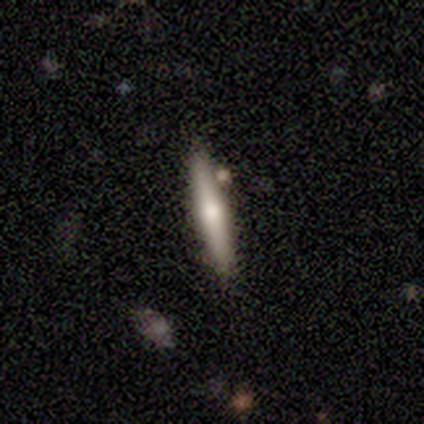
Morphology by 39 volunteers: Smooth or featured?
  - featured or disk: 54% *
  - smooth: 38%
  - star or artifact: 8%
Edge-on disk?
  - yes: 86% *
  - no: 14%
Edge-on bulge?
  - rounded: 94% *
  - boxy: 6%
  - none: 0%
Merging?
  - none: 83% *
  - merger: 8%
  - minor disturbance: 6%
  - major disturbance: 3%